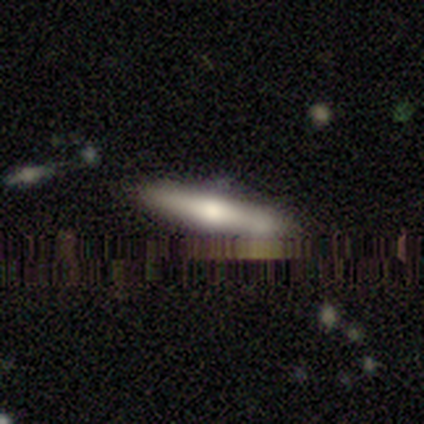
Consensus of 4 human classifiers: This is clearly a smooth galaxy (100%). How rounded: likely cigar-shaped (75%). Merging: likely none (75%).